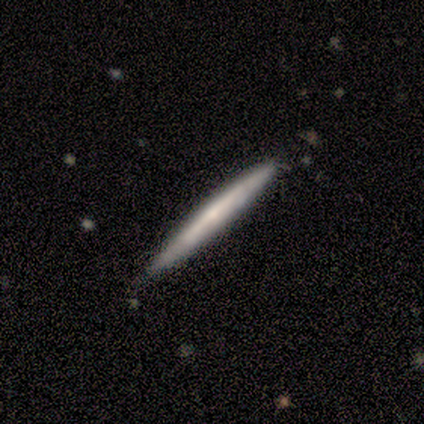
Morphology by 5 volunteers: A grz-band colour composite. It shows a smooth galaxy with no disk features (100%) that is cigar-shaped (100%). Merging: none (80%).